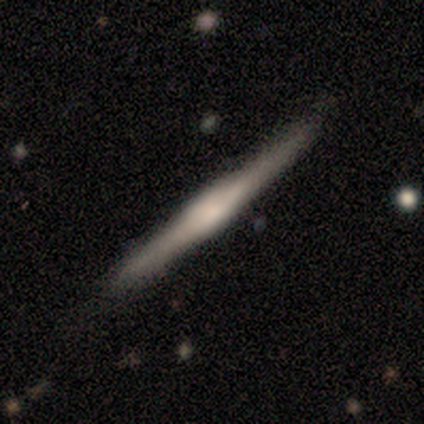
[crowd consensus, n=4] Smooth or featured?
  - smooth: 75% *
  - featured or disk: 25%
  - star or artifact: 0%
How rounded?
  - cigar-shaped: 67% *
  - in between: 33%
  - round: 0%
Merging?
  - none: 50% * (tied)
  - minor disturbance: 50% * (tied)
  - major disturbance: 0%
  - merger: 0%